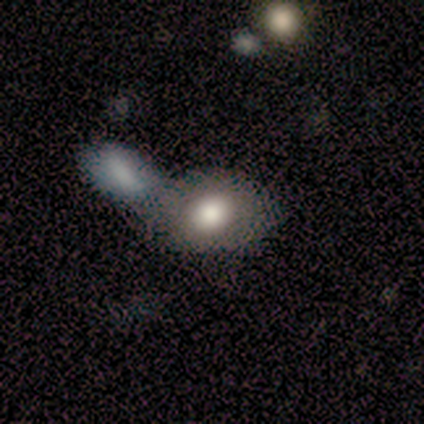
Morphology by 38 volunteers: A smooth galaxy with no disk features (71%) that is in between round and cigar-shaped (78%). Merging: merger (47%).